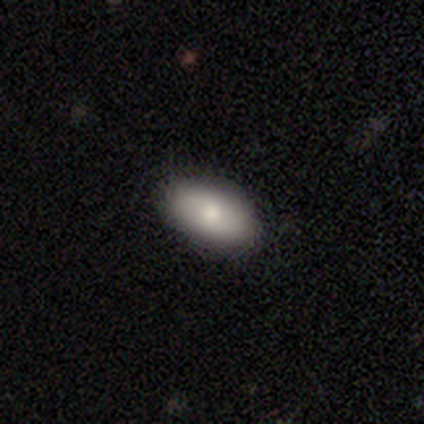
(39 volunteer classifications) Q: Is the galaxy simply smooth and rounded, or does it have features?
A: smooth — 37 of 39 (95%).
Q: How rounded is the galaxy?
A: in between — 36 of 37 (97%).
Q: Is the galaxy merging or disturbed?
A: none — 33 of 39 (85%).